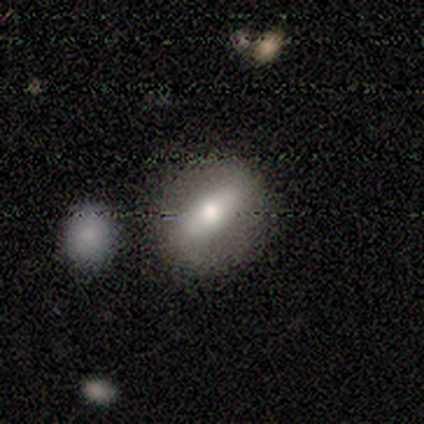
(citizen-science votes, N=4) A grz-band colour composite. It shows a smooth galaxy with no disk features (50%, tied with featured or disk) that is round (50%, tied with in between). Merging: none (100%).